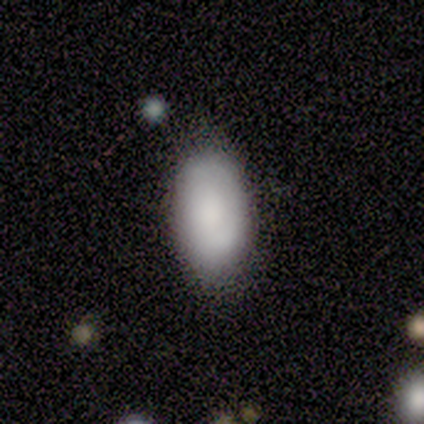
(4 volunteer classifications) This is likely a smooth galaxy (75%). How rounded: clearly in between (100%). Merging: possibly none (50%, tied with minor disturbance).